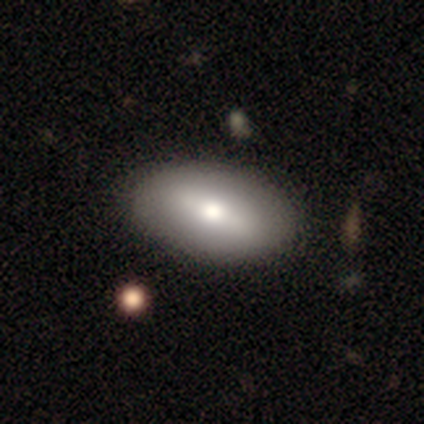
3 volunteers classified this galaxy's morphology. This is likely a smooth galaxy (67%). How rounded: clearly in between (100%). Merging: clearly none (100%).